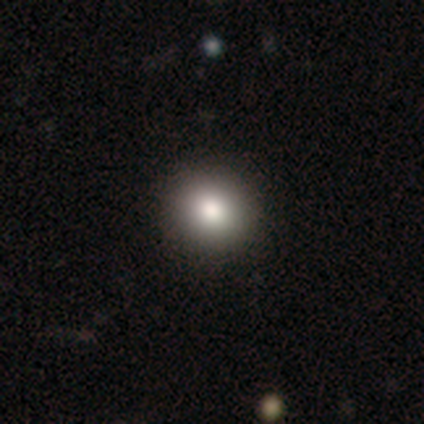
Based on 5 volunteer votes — This is clearly a smooth galaxy (100%). How rounded: clearly round (100%). Merging: clearly none (80%).